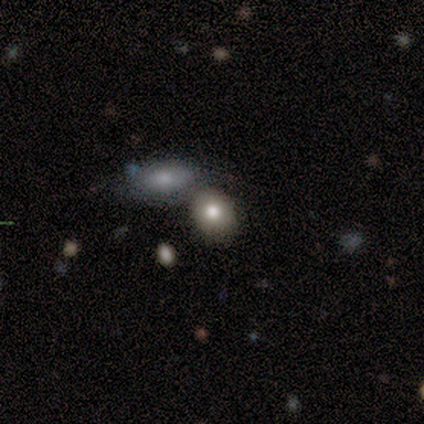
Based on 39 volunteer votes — Smooth or featured? smooth (72%)
How rounded? in between (71%)
Merging? merger (50%)